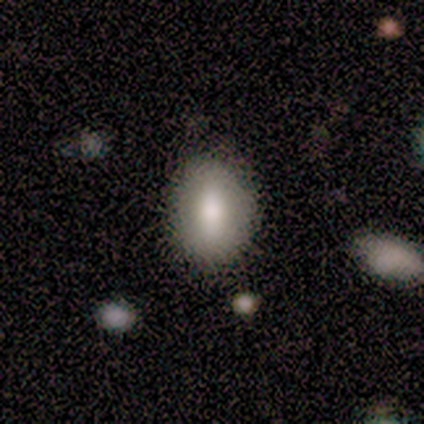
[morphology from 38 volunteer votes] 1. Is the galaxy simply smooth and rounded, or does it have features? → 71% smooth, 24% featured or disk, 5% star or artifact.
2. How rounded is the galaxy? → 74% in between, 26% round, 0% cigar-shaped.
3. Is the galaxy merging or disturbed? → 86% none, 6% minor disturbance, 6% major disturbance, 3% merger.